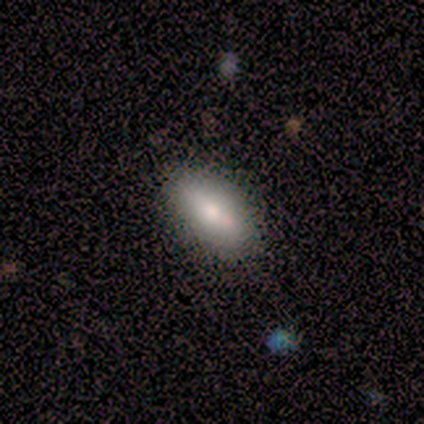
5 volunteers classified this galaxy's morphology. This appears to be a smooth galaxy with no disk features (40%, tied with featured or disk) that is round (50%, tied with in between). Merging: none (100%).